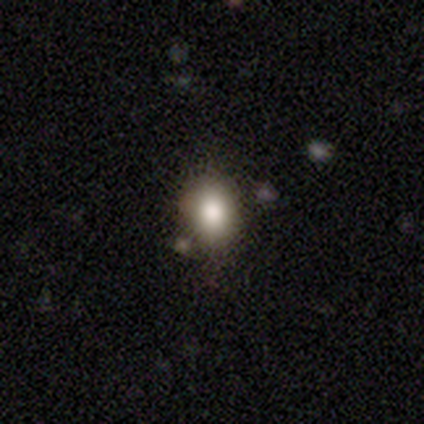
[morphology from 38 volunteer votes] smooth-or-featured: smooth: 82% | star or artifact: 16% | featured or disk: 3%
  how-rounded: in between: 52% | round: 48% | cigar-shaped: 0%
  merging: none: 69% | minor disturbance: 16% | merger: 9% | major disturbance: 6%